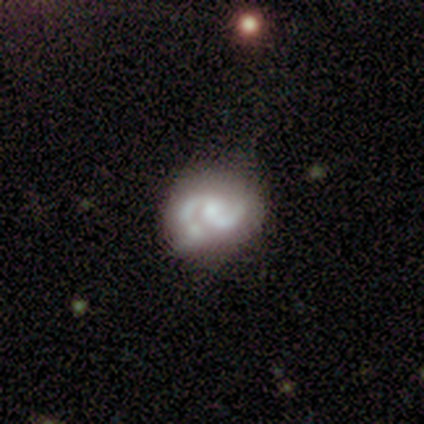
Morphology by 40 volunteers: Q: Smooth or featured?
A: featured or disk (82%); runner-up: smooth (15%)
Q: Edge-on disk?
A: no (97%); runner-up: yes (3%)
Q: Bar?
A: no (75%); runner-up: weak (19%)
Q: Spiral arms?
A: yes (78%); runner-up: no (22%)
Q: Spiral winding?
A: medium (52%); runner-up: loose (28%)
Q: Spiral arm count?
A: 2 (96%); runner-up: can't tell (4%)
Q: Bulge size?
A: small (44%); runner-up: moderate (34%)
Q: Merging?
A: none (62%); runner-up: minor disturbance (21%)